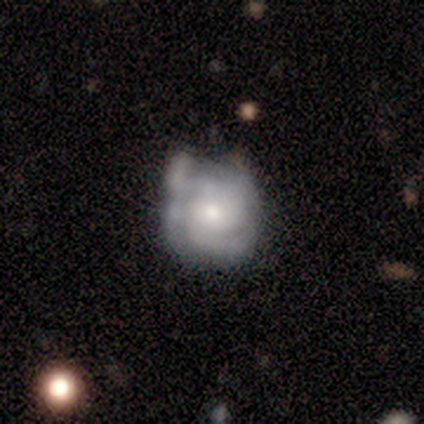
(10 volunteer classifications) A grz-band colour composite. It shows a smooth galaxy with no disk features (50%, tied with featured or disk) that is round (80%). Merging: none (50%).